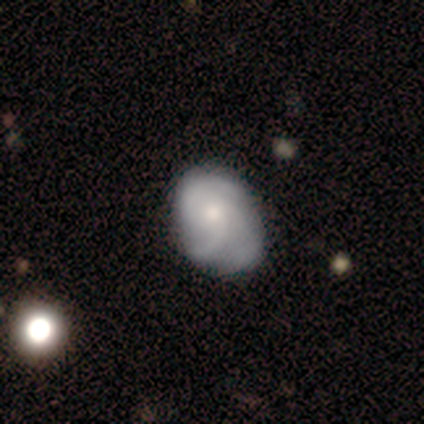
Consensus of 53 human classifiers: Smooth or featured?
  - featured or disk: 62% *
  - smooth: 32%
  - star or artifact: 6%
Edge-on disk?
  - no: 97% *
  - yes: 3%
Bar?
  - no: 84% *
  - weak: 12%
  - strong: 3%
Spiral arms?
  - yes: 91% *
  - no: 9%
Spiral winding?
  - medium: 48% *
  - tight: 41%
  - loose: 10%
Spiral arm count?
  - 3: 69% *
  - can't tell: 17%
  - 2: 10%
  - 1: 3%
  - 4: 0%
  - more than 4: 0%
Bulge size?
  - small: 53% *
  - moderate: 38%
  - dominant: 6%
  - large: 3%
  - none: 0%
Merging?
  - none: 58% *
  - minor disturbance: 30%
  - major disturbance: 12%
  - merger: 0%